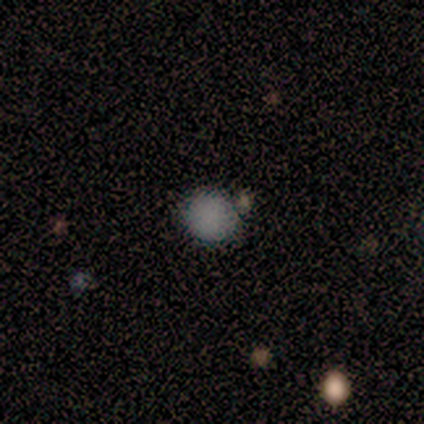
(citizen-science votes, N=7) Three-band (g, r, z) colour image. It shows a smooth galaxy with no disk features (86%) that is round (100%). Merging: none (83%).